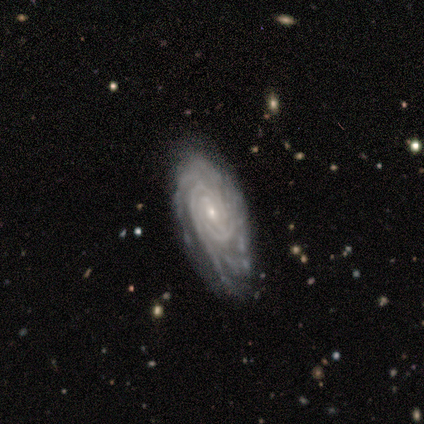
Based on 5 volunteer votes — featured or disk 100%, smooth 0%, star or artifact 0%. Down the decision tree: edge-on disk — no (100%); bar — no (80%); spiral arms — yes (100%); spiral arm count — 3 (40%, tied with can't tell); spiral winding — tight (100%); bulge size — small (100%); merging — minor disturbance (60%).